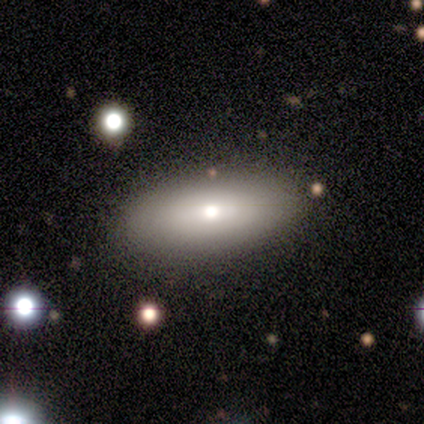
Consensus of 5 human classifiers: Overall: smooth (80%). How rounded: in between (75%). Merging: none (100%).